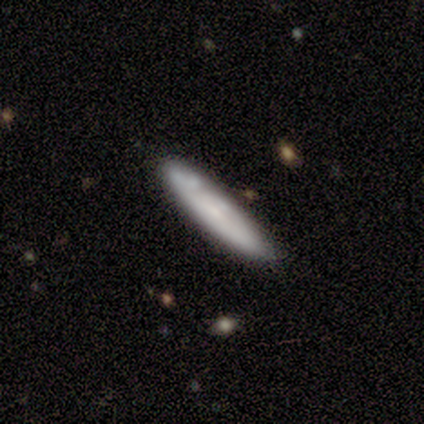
This appears to be a smooth galaxy with no disk features (57%) that is cigar-shaped (70%). Merging: none (74%).